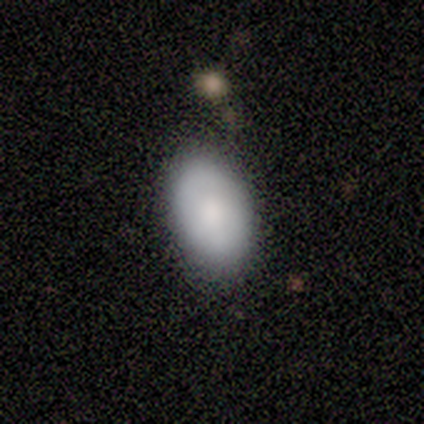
smooth_or_featured: smooth (p=0.80) [alt: featured or disk p=0.20]
how_rounded: in between (p=1.00)
merging: none (p=0.80) [alt: merger p=0.20]